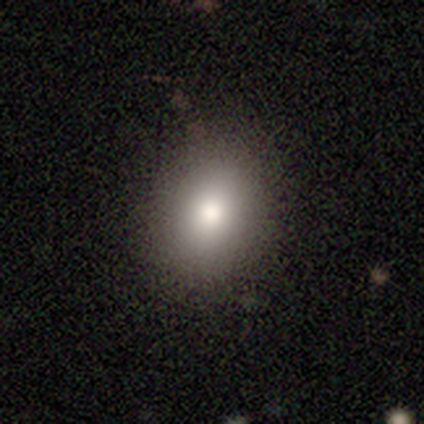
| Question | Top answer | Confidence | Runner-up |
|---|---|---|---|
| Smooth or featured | smooth | 100% | — |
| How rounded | round | 60% | in between (40%) |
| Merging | none | 100% | — |